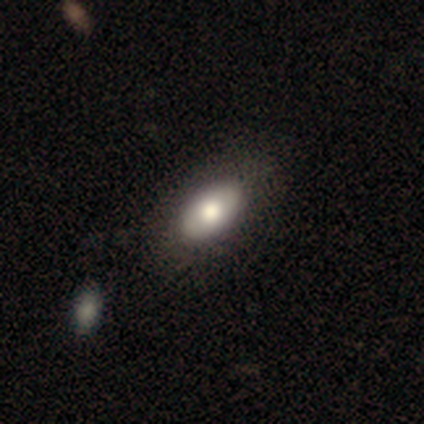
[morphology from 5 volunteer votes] Smooth or featured: smooth — 80% (featured or disk — 20%)
How rounded: in between — 100%
Merging: none — 100%